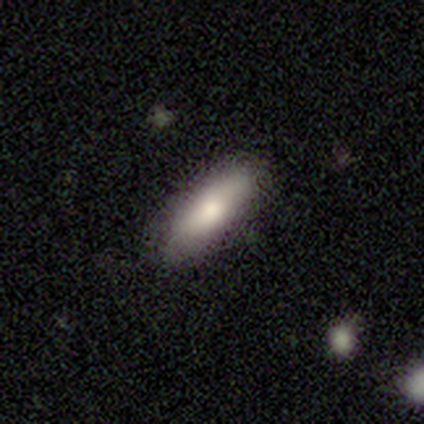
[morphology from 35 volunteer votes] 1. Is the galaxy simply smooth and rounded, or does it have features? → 74% smooth, 20% featured or disk, 6% star or artifact.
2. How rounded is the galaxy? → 69% in between, 31% cigar-shaped, 0% round.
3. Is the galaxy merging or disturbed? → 88% none, 9% minor disturbance, 3% merger, 0% major disturbance.